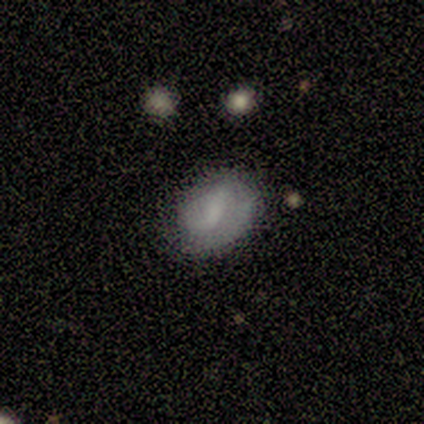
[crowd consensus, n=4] Q: Smooth or featured?
A: smooth (50%); tied with: featured or disk (50%)
Q: How rounded?
A: in between (100%)
Q: Merging?
A: none (100%)